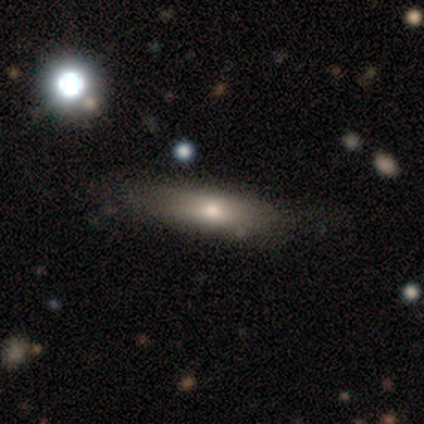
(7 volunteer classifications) Smooth or featured? star or artifact (57%)